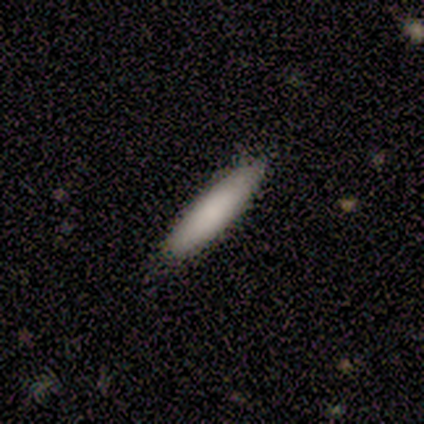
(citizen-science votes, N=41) smooth_or_featured: smooth (p=0.93) [alt: star or artifact p=0.05]
how_rounded: cigar-shaped (p=0.76) [alt: in between p=0.24]
merging: none (p=0.85) [alt: minor disturbance p=0.15]